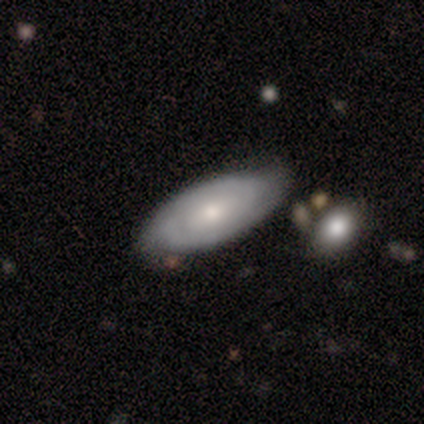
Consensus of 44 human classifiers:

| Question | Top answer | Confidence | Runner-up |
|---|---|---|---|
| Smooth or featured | featured or disk | 52% | smooth (43%) |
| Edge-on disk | no | 74% | yes (26%) |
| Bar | no | 53% | weak (47%) |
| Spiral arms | yes | 94% | no (6%) |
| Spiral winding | tight | 81% | medium (12%) |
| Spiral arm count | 2 | 56% | can't tell (31%) |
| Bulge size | moderate | 65% | small (24%) |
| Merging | none | 67% | minor disturbance (21%) |